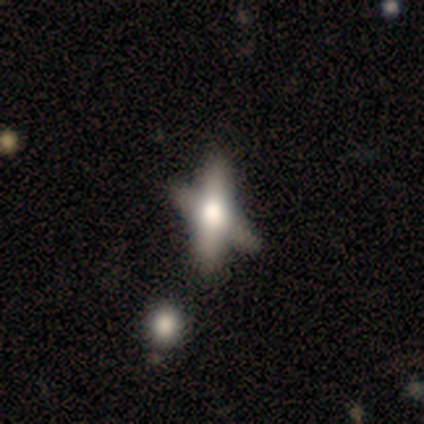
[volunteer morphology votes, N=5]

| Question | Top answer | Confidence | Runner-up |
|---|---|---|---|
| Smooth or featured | smooth | 60% | featured or disk (40%) |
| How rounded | cigar-shaped | 67% | in between (33%) |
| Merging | none | 80% | merger (20%) |